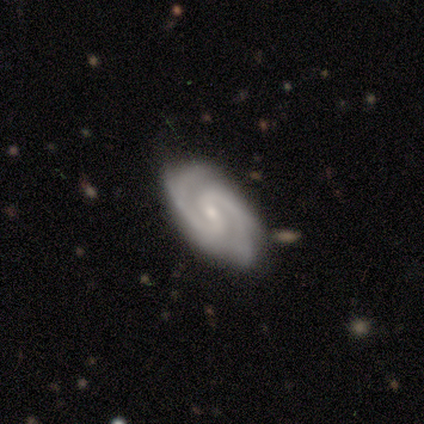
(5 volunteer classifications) Smooth or featured? featured or disk (100%)
Edge-on disk? no (100%)
Bar? weak (40%, tied with no)
Spiral arms? yes (100%)
Spiral winding? medium (60%)
Spiral arm count? 2 (80%)
Bulge size? small (80%)
Merging? none (100%)